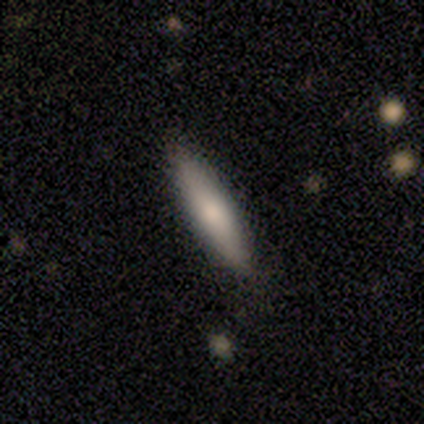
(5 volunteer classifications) Q: Smooth or featured?
A: smooth (100%)
Q: How rounded?
A: cigar-shaped (100%)
Q: Merging?
A: none (100%)